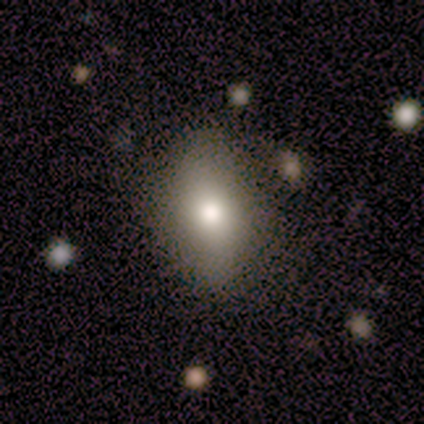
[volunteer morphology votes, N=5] A smooth galaxy with no disk features (100%) that is in between round and cigar-shaped (100%). Merging: none (100%).